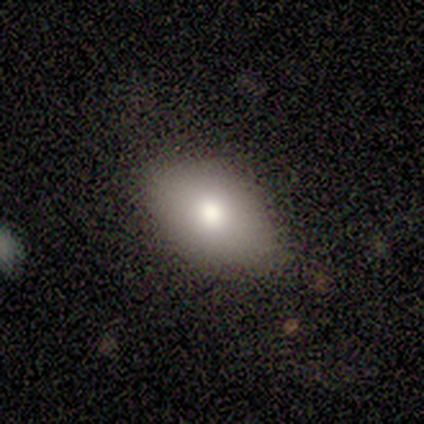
Morphology: type=smooth (100%); roundness=in between (100%); merging=none (100%).